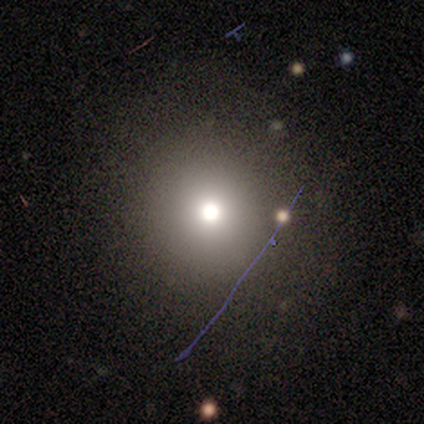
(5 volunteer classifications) smooth 60%, star or artifact 40%, featured or disk 0%. Down the decision tree: how rounded — round (100%); merging — none (100%).